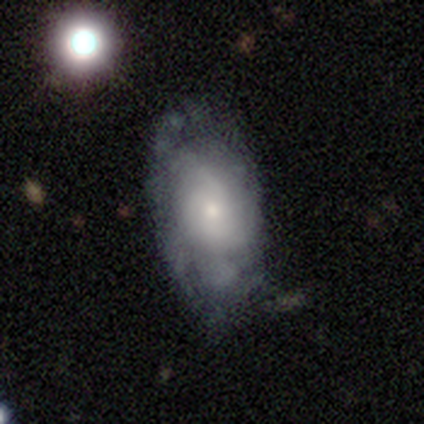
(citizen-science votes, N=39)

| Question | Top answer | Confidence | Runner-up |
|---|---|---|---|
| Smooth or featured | featured or disk | 56% | smooth (38%) |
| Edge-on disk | no | 91% | yes (9%) |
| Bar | no | 90% | weak (10%) |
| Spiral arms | yes | 65% | no (35%) |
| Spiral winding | tight | 38% | tied: medium (38%) |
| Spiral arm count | can't tell | 69% | 2 (23%) |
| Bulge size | small | 60% | moderate (25%) |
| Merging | none | 59% | minor disturbance (27%) |